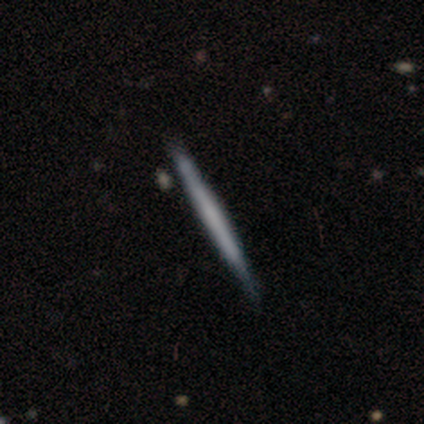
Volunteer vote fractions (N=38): A featured or disk galaxy (50%) viewed edge-on (100%) with no central bulge (95%). Merging: none (75%).